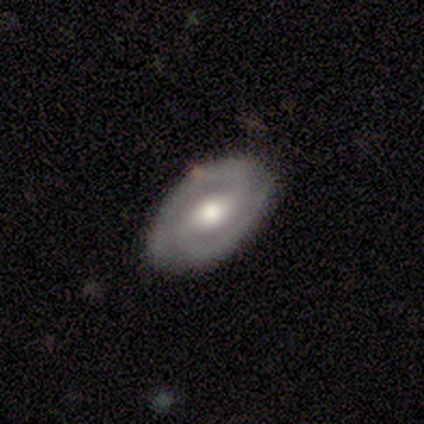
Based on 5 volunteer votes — Overall: smooth (40%, tied with featured or disk). How rounded: in between (100%). Merging: none (100%).